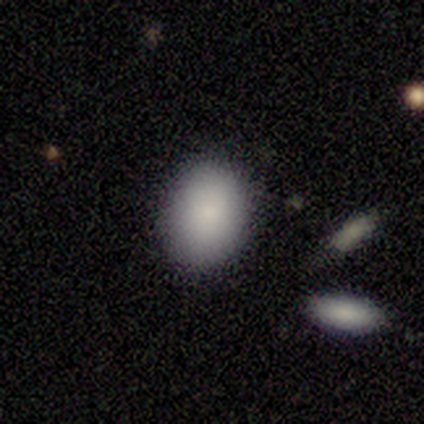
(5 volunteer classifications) smooth_or_featured: smooth (p=1.00)
how_rounded: in between (p=1.00)
merging: none (p=1.00)